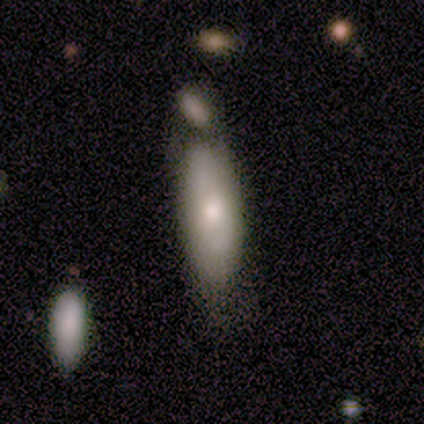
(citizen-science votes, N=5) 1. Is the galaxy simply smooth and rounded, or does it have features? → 60% smooth, 20% featured or disk, 20% star or artifact.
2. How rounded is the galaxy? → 67% in between, 33% cigar-shaped, 0% round.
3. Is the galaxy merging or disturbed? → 50% none (tied), 50% minor disturbance (tied), 0% major disturbance, 0% merger.